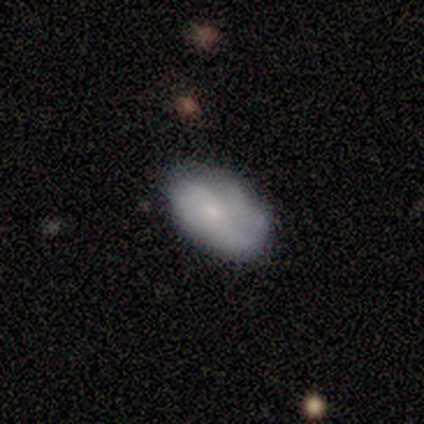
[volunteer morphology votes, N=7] Smooth or featured?
  - smooth: 71% *
  - featured or disk: 29%
  - star or artifact: 0%
How rounded?
  - in between: 100% *
  - round: 0%
  - cigar-shaped: 0%
Merging?
  - none: 57% *
  - minor disturbance: 29%
  - major disturbance: 14%
  - merger: 0%